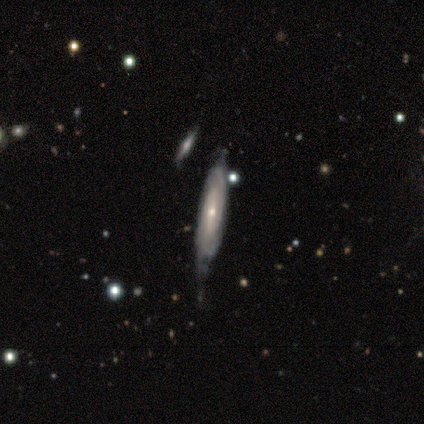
Q: Smooth or featured?
A: featured or disk (100%)
Q: Edge-on disk?
A: yes (60%); runner-up: no (40%)
Q: Edge-on bulge?
A: boxy (33%); tied with: none (33%); rounded (33%)
Q: Merging?
A: minor disturbance (60%); runner-up: none (40%)